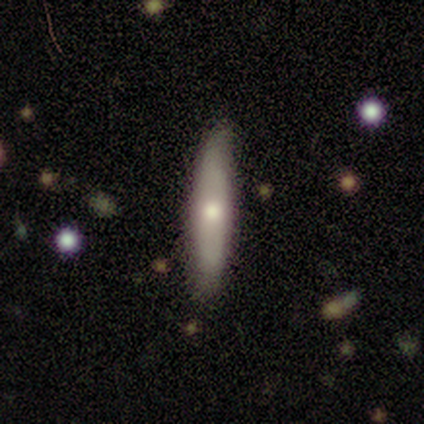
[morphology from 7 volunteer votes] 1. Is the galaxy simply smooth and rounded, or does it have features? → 57% featured or disk, 43% smooth, 0% star or artifact.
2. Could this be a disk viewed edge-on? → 50% yes (tied), 50% no (tied).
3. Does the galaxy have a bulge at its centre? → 100% rounded, 0% boxy, 0% none.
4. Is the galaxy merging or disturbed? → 86% none, 14% minor disturbance, 0% major disturbance, 0% merger.